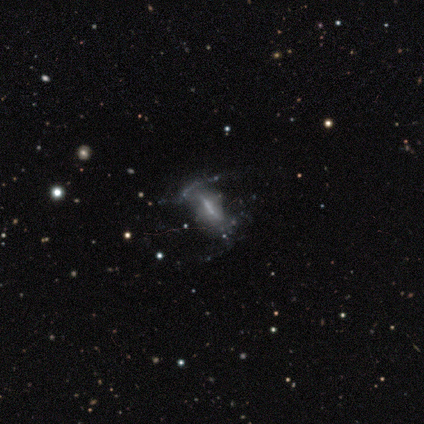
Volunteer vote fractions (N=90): smooth_or_featured: featured or disk (p=0.63) [alt: smooth p=0.19]
disk_edge_on: no (p=0.72) [alt: yes p=0.28]
bar: strong (p=0.41) [alt: weak p=0.39]
has_spiral_arms: no (p=0.59) [alt: yes p=0.41]
bulge_size: small (p=0.46) [alt: none p=0.34]
merging: none (p=0.39) [alt: major disturbance p=0.35]